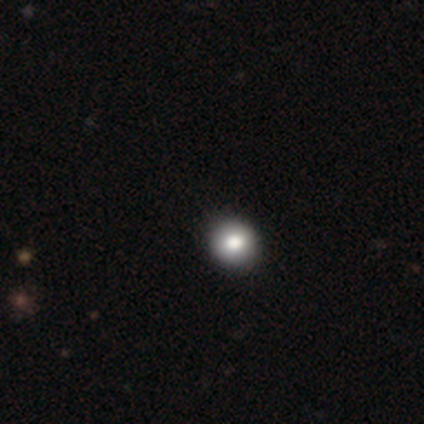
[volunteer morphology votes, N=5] Smooth or featured? 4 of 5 (80%) said smooth. How rounded? 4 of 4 (100%) said round. Merging? 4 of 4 (100%) said none.